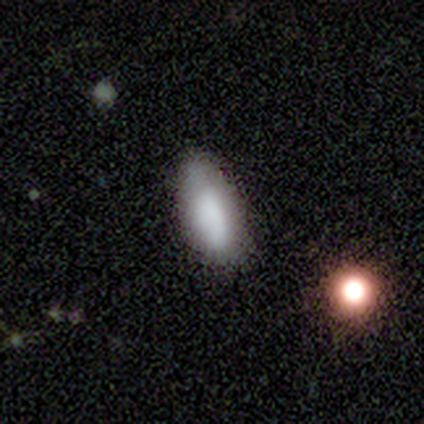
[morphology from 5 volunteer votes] This is clearly a smooth galaxy (80%). How rounded: clearly in between (100%). Merging: marginally none (40%, tied with minor disturbance).